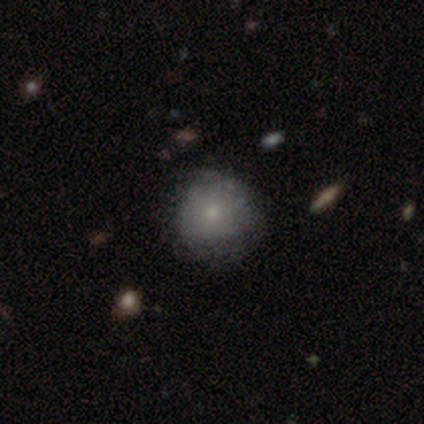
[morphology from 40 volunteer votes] type=smooth (65%); roundness=round (85%); merging=none (78%).